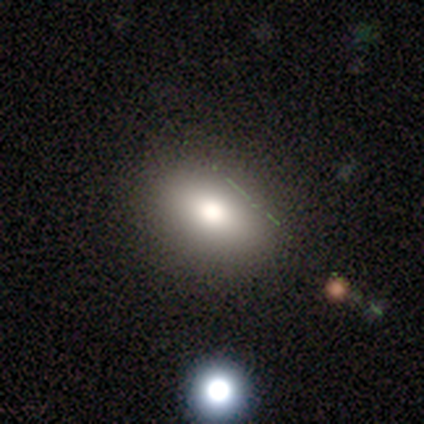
Smooth or featured? 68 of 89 (76%) said smooth. How rounded? 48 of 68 (71%) said in between. Merging? 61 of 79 (77%) said none.